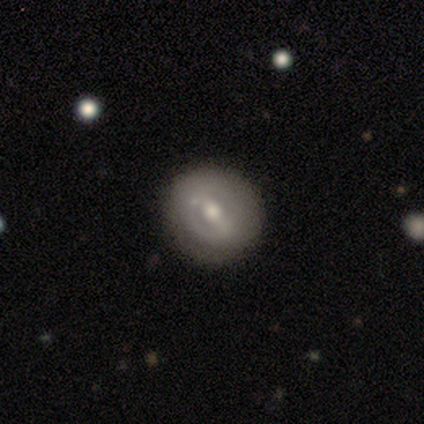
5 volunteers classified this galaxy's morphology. Overall: smooth (60%; featured or disk 40%). How rounded: round (67%; in between 33%). Merging: none (100%).